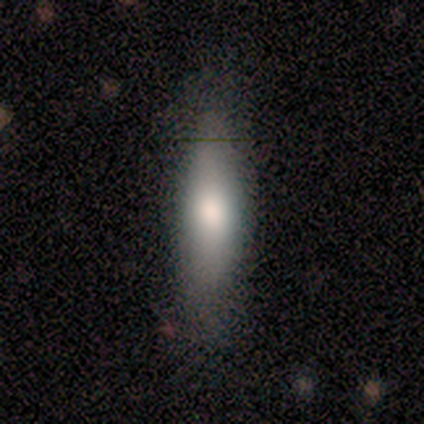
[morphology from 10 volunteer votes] smooth-or-featured: smooth: 80% | featured or disk: 10% | star or artifact: 10%
  how-rounded: cigar-shaped: 88% | in between: 12% | round: 0%
  merging: none: 67% | minor disturbance: 22% | merger: 11% | major disturbance: 0%